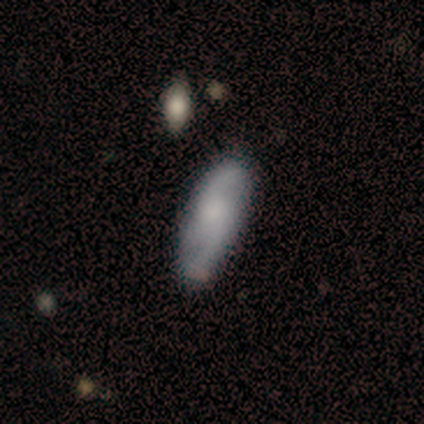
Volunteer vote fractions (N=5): smooth_or_featured: featured or disk (p=0.80) [alt: smooth p=0.20]
disk_edge_on: no (p=0.75) [alt: yes p=0.25]
bar: no (p=0.67) [alt: weak p=0.33]
has_spiral_arms: yes (p=1.00)
spiral_winding: loose (p=1.00)
spiral_arm_count: 2 (p=1.00)
bulge_size: none (p=0.67) [alt: small p=0.33]
merging: none (p=0.80) [alt: minor disturbance p=0.20]